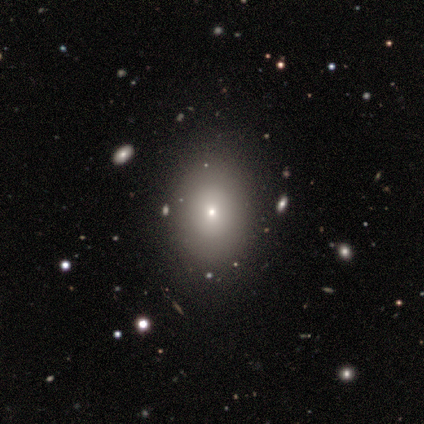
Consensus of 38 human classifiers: A smooth galaxy with no disk features (76%) that is in between round and cigar-shaped (62%). Merging: none (86%).